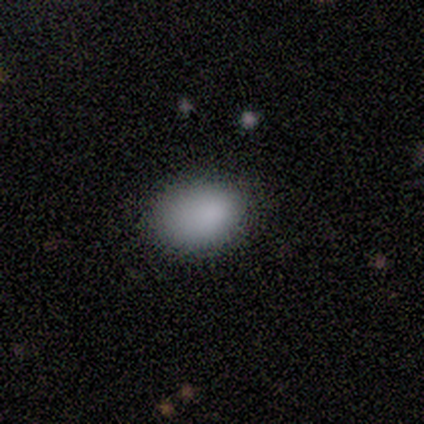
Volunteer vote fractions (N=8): Smooth or featured? 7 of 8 (88%) said smooth. How rounded? 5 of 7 (71%) said in between. Merging? 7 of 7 (100%) said none.